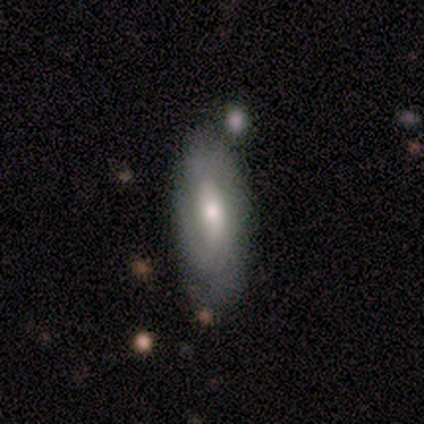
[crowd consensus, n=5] Smooth or featured: smooth — 60% (featured or disk — 40%)
How rounded: in between — 67% (cigar-shaped — 33%)
Merging: none — 60% (minor disturbance — 40%)